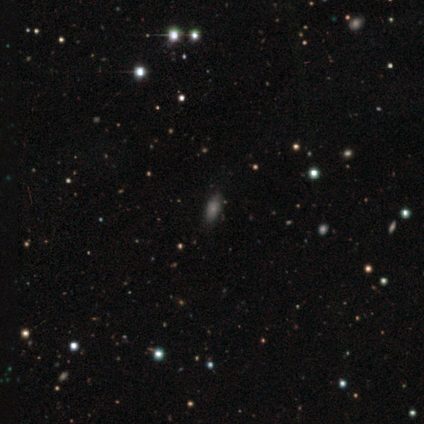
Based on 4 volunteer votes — This is likely a featured or disk galaxy (75%). It is likely not viewed edge-on (67%). Bar: clearly no (100%). Spiral arm pattern: clearly no (100%). Central bulge: possibly small (50%, tied with none). Merging: clearly none (100%).